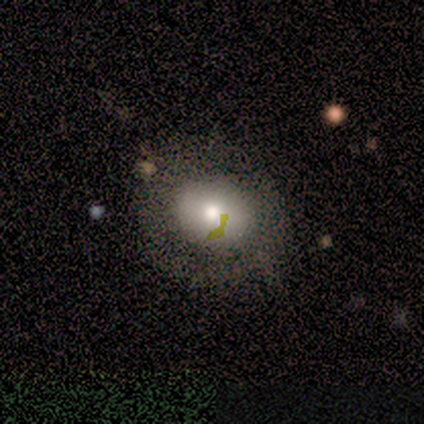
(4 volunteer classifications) Overall: smooth (75%). How rounded: round (100%). Merging: none (75%).